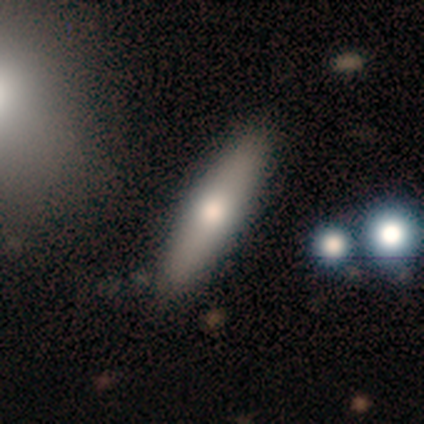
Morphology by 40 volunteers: type=smooth (62%); roundness=cigar-shaped (68%); merging=none (70%).